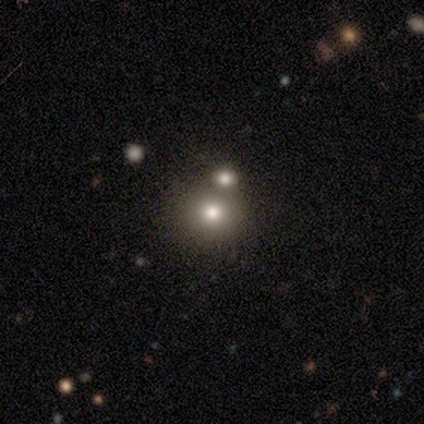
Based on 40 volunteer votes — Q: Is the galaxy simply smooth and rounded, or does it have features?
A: smooth — 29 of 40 (72%).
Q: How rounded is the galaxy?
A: round — 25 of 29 (86%).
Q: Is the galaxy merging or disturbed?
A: none — 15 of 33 (45%).